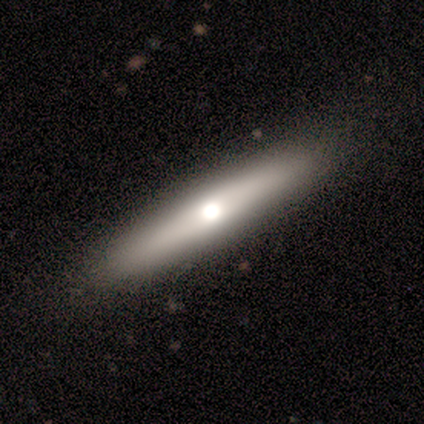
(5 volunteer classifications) Volunteers were most divided on "smooth or featured": smooth: 60%, featured or disk: 40%, star or artifact: 0%. More confident: merging — none (100%); how rounded — cigar-shaped (67%).